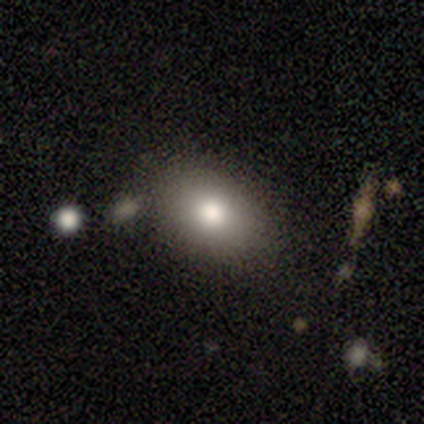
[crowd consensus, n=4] Volunteers were most divided on "merging" (3-way tie): none: 33%, minor disturbance: 33%, major disturbance: 33%, merger: 0%. More confident: how rounded — in between (100%); smooth or featured — smooth (75%).